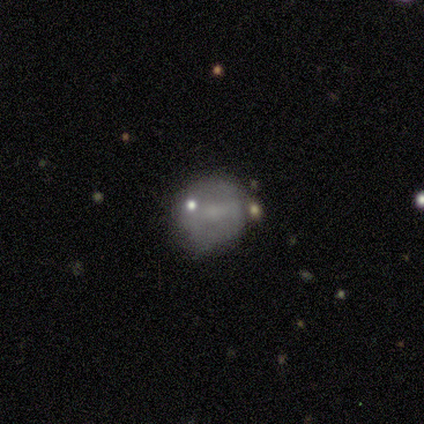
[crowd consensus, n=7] Smooth or featured?
  - smooth: 57% *
  - featured or disk: 43%
  - star or artifact: 0%
How rounded?
  - round: 75% *
  - in between: 25%
  - cigar-shaped: 0%
Merging?
  - none: 57% *
  - minor disturbance: 29%
  - major disturbance: 14%
  - merger: 0%